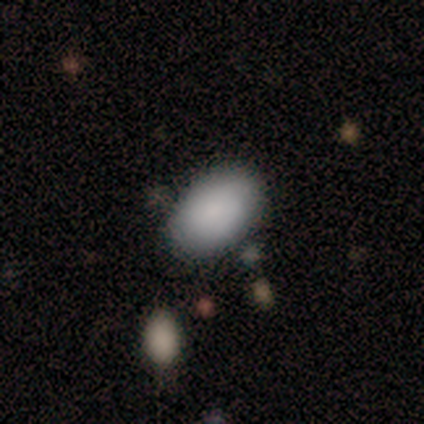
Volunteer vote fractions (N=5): Smooth or featured: smooth — 80% (star or artifact — 20%)
How rounded: in between — 100%
Merging: minor disturbance — 75% (none — 25%)